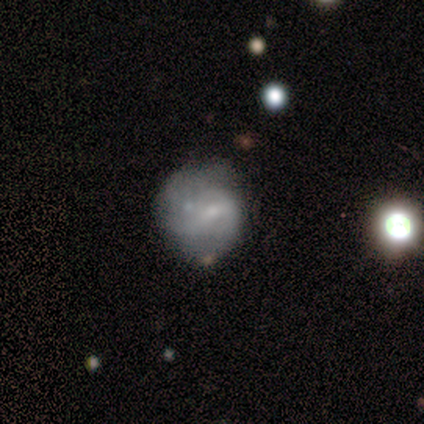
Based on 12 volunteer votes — smooth_or_featured: smooth (p=0.42) [tied with: featured or disk p=0.42]
how_rounded: round (p=0.80) [alt: cigar-shaped p=0.20]
merging: none (p=0.50) [alt: minor disturbance p=0.30]